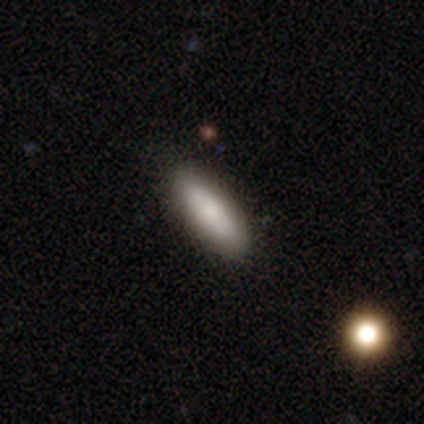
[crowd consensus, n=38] Smooth or featured? 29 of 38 (76%) said smooth. How rounded? 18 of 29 (62%) said in between. Merging? 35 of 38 (92%) said none.